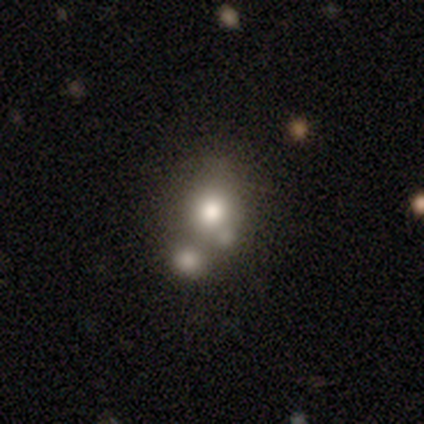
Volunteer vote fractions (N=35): Morphology: type=smooth (69%); roundness=round (75%); merging=merger (62%).